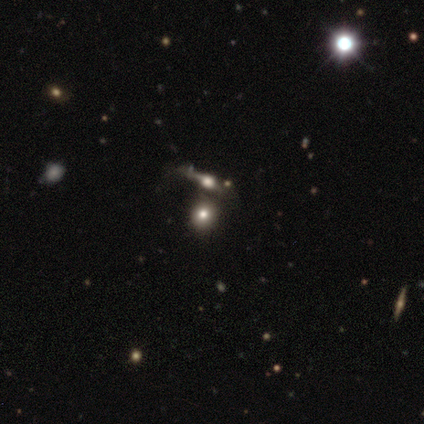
smooth 40% (tied), featured or disk 40% (tied), star or artifact 20%. Down the decision tree: how rounded — round (100%); merging — none (50%).